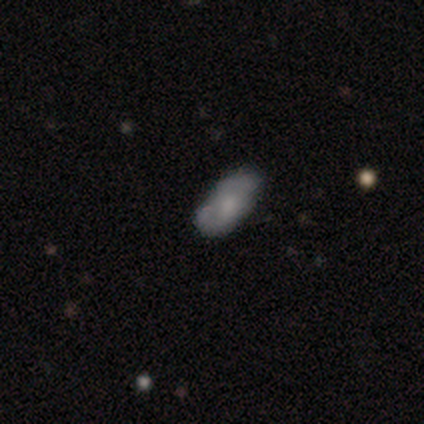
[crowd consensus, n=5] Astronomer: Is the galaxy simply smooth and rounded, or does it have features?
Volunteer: smooth — 80%.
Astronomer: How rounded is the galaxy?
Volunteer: in between — 75%.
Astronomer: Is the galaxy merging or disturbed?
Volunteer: none — 60% (runner-up: minor disturbance, 40%).